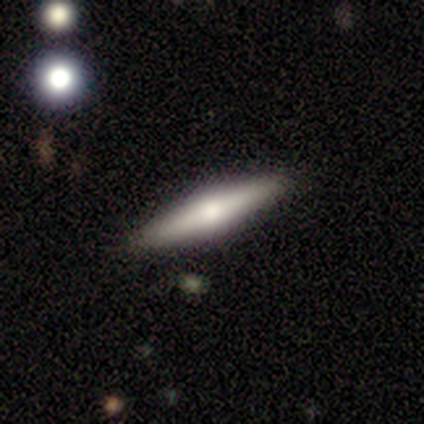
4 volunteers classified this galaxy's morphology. smooth-or-featured: smooth: 50% (tied) | featured or disk: 50% (tied) | star or artifact: 0%
  how-rounded: cigar-shaped: 100% | round: 0% | in between: 0%
  merging: none: 100% | minor disturbance: 0% | major disturbance: 0% | merger: 0%